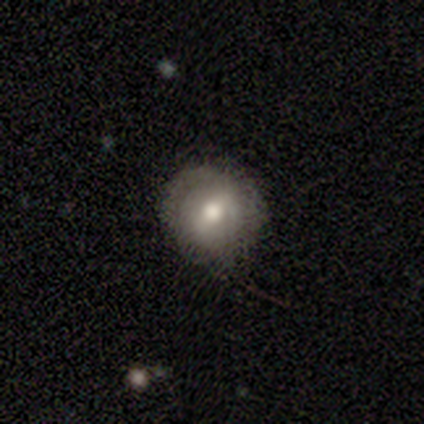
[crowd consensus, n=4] A smooth galaxy with no disk features (75%) that is round (100%). Merging: none (75%).